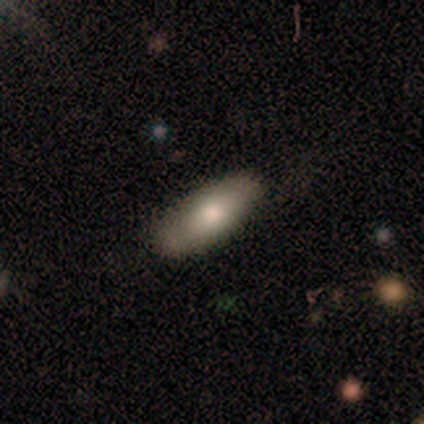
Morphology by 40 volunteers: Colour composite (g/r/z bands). It shows a smooth galaxy with no disk features (70%) that is in between round and cigar-shaped (68%). Merging: none (79%).